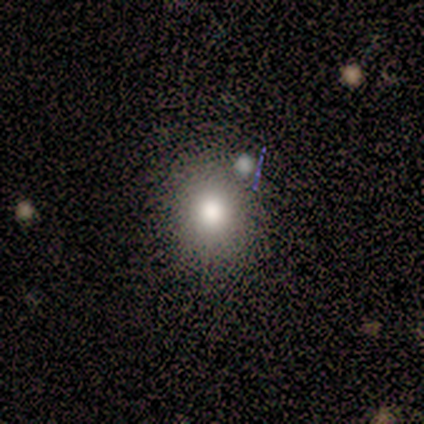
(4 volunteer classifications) Smooth or featured: smooth — 75% (star or artifact — 25%)
How rounded: round — 100%
Merging: none — 100%